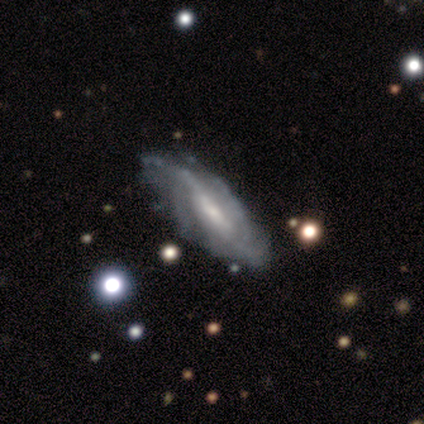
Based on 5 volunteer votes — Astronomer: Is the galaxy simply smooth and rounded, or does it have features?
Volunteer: featured or disk — 60%.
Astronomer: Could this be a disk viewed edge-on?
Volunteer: no — 67%.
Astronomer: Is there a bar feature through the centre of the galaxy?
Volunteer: strong — 50%, tied with no at 50%.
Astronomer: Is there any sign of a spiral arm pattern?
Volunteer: yes — 100%.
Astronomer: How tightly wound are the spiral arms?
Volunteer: medium — 100%.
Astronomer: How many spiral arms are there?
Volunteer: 4 — 100%.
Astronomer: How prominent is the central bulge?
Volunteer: moderate — 100%.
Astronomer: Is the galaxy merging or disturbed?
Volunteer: minor disturbance — 50%.